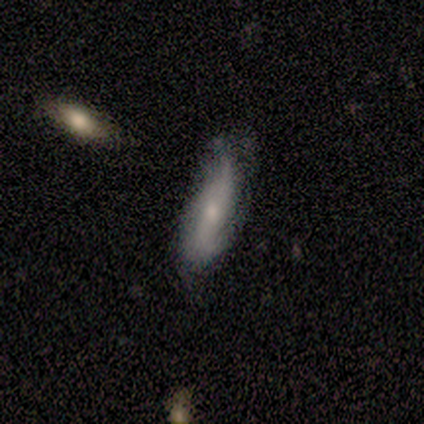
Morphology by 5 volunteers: This is likely a featured or disk galaxy (60%). It is clearly not viewed edge-on (100%). Bar: likely no (67%). Spiral arm pattern: clearly yes (100%). Spiral arm count: likely 2 (67%). Spiral winding: likely tight (67%). Central bulge: likely small (67%). Merging: clearly none (80%).